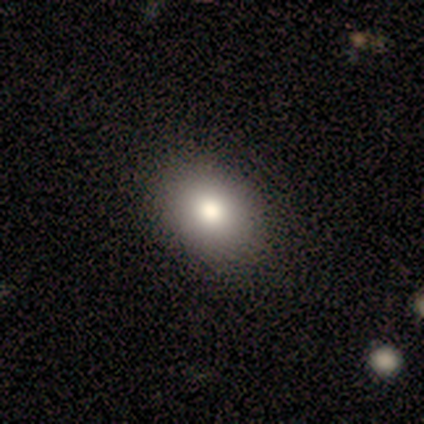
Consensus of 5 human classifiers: A smooth galaxy with no disk features (80%) that is in between round and cigar-shaped (100%). Merging: none (80%).